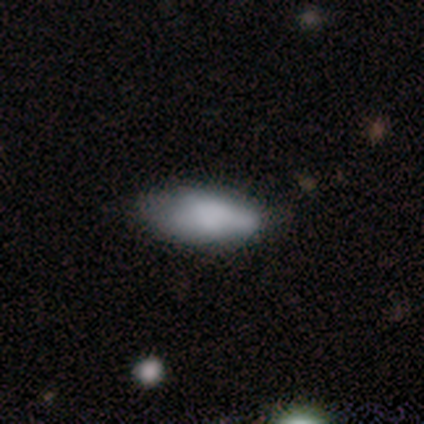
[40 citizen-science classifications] A smooth galaxy with no disk features (70%) that is in between round and cigar-shaped (89%). Merging: none (50%).